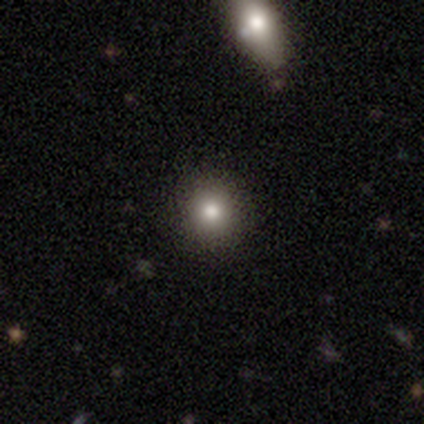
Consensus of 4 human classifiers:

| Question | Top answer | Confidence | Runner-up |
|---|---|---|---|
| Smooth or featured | smooth | 75% | star or artifact (25%) |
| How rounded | in between | 67% | round (33%) |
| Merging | none | 67% | minor disturbance (33%) |